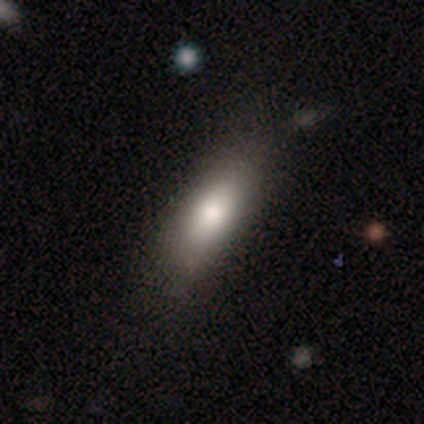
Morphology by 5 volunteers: Smooth or featured? 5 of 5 (100%) said smooth. How rounded? 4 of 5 (80%) said in between. Merging? 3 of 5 (60%) said minor disturbance.